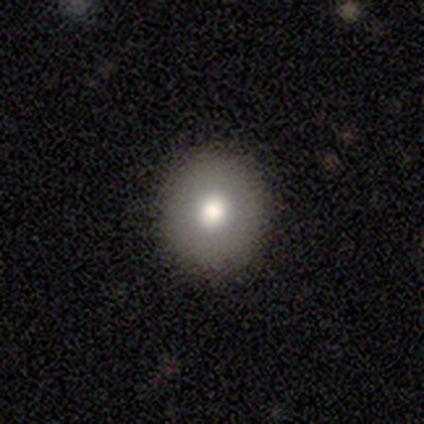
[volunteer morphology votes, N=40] Smooth or featured? smooth (72%)
How rounded? round (100%)
Merging? none (100%)